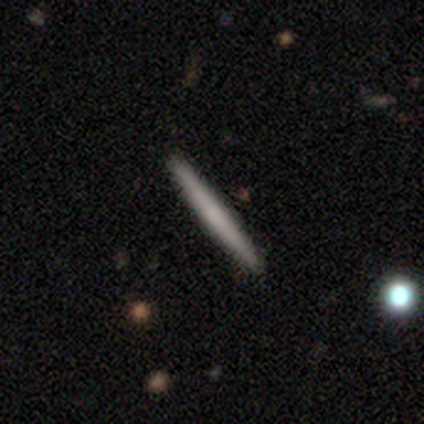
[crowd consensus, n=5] Morphology: type=smooth (60%); roundness=cigar-shaped (100%); merging=none (80%).